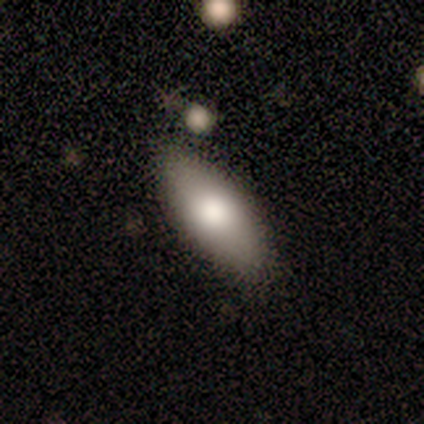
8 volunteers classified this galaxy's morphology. Smooth or featured: smooth — 75% (featured or disk — 25%)
How rounded: in between — 83% (cigar-shaped — 17%)
Merging: none — 100%